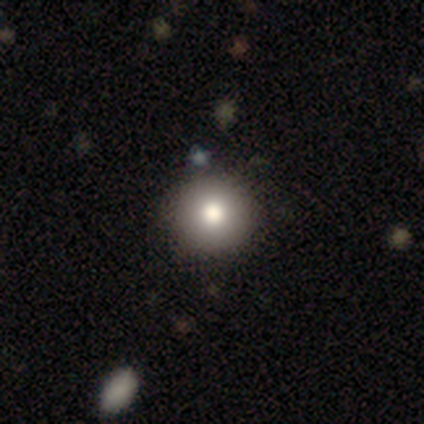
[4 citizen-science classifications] smooth 50%, featured or disk 25%, star or artifact 25%. Down the decision tree: how rounded — round (100%); merging — none (100%).